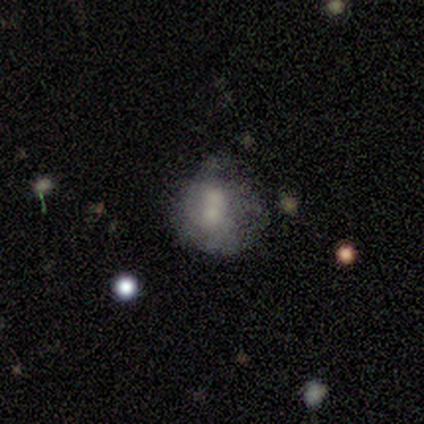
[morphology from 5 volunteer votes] smooth_or_featured: featured or disk (p=0.80) [alt: smooth p=0.20]
disk_edge_on: no (p=1.00)
bar: no (p=0.75) [alt: strong p=0.25]
has_spiral_arms: no (p=1.00)
bulge_size: small (p=0.75) [alt: large p=0.25]
merging: none (p=0.40) [tied with: merger p=0.40]